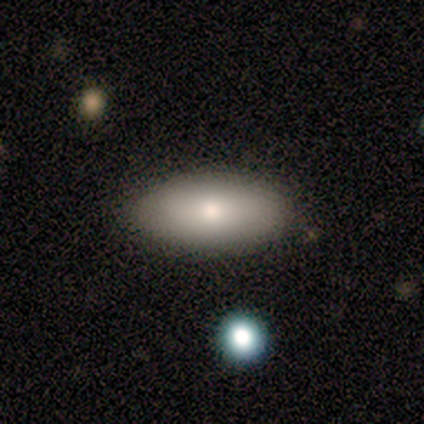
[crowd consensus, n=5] This appears to be a smooth galaxy with no disk features (60%) that is in between round and cigar-shaped (100%). Merging: none (100%).